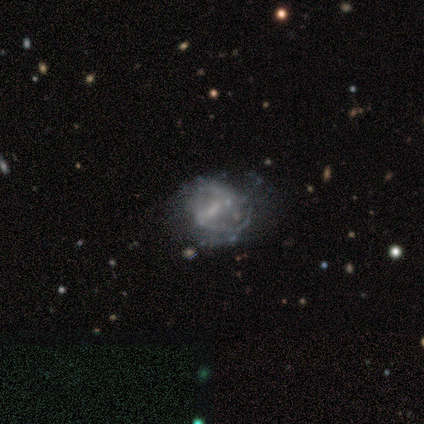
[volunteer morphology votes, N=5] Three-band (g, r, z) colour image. It shows a featured or disk galaxy (60%) with no bar (67%), no spiral arms (67%) and a moderate central bulge (33%, tied with small and none). Merging: none (60%).